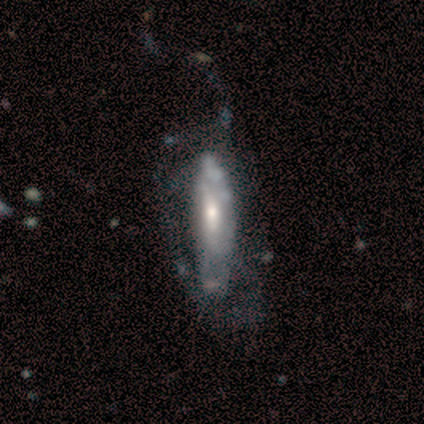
A featured or disk galaxy (80%) with no bar (45%), no spiral arms (59%) and a moderate central bulge (59%). Merging: major disturbance (49%).